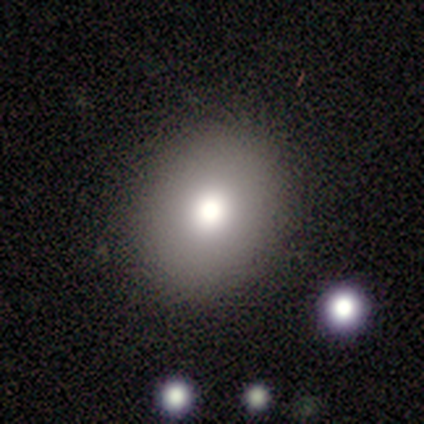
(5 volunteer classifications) Smooth or featured: smooth — 100%
How rounded: round — 40% (tied with in between — 40%)
Merging: none — 100%